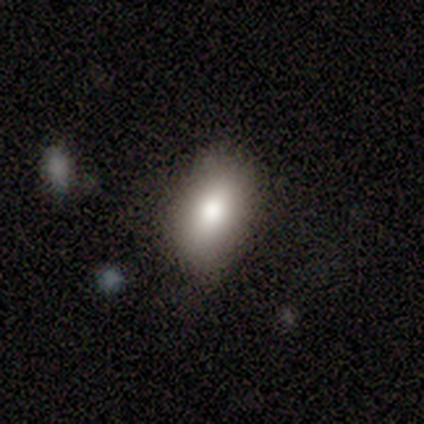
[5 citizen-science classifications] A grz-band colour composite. It shows a featured or disk galaxy (40%, tied with star or artifact) viewed edge-on (50%, tied with no) with a boxy central bulge (100%). Merging: none (67%).